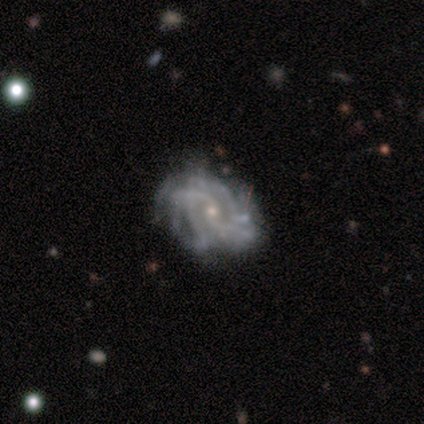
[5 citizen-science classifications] Smooth or featured?
  - featured or disk: 100% *
  - smooth: 0%
  - star or artifact: 0%
Edge-on disk?
  - no: 100% *
  - yes: 0%
Bar?
  - no: 60% *
  - weak: 40%
  - strong: 0%
Spiral arms?
  - yes: 100% *
  - no: 0%
Spiral winding?
  - tight: 60% *
  - medium: 40%
  - loose: 0%
Spiral arm count?
  - can't tell: 60% *
  - 2: 20%
  - more than 4: 20%
  - 1: 0%
  - 3: 0%
  - 4: 0%
Bulge size?
  - small: 80% *
  - moderate: 20%
  - dominant: 0%
  - large: 0%
  - none: 0%
Merging?
  - none: 40% * (tied)
  - major disturbance: 40% * (tied)
  - minor disturbance: 20%
  - merger: 0%